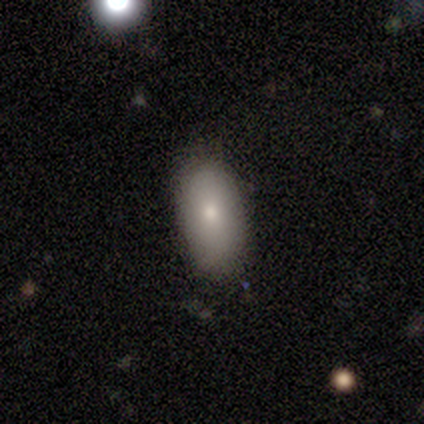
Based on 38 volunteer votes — Smooth or featured? 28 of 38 (74%) said smooth. How rounded? 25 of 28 (89%) said in between. Merging? 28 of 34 (82%) said none.